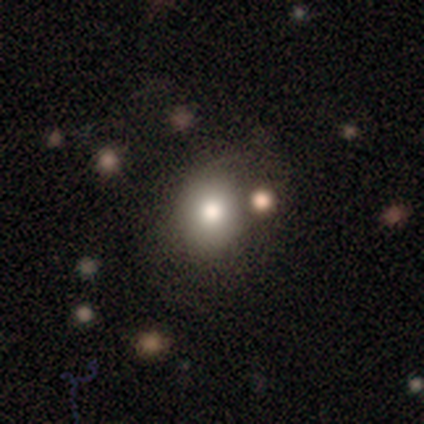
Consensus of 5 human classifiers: Smooth or featured: smooth — 80% (star or artifact — 20%)
How rounded: round — 75% (in between — 25%)
Merging: none — 50% (minor disturbance — 25%)